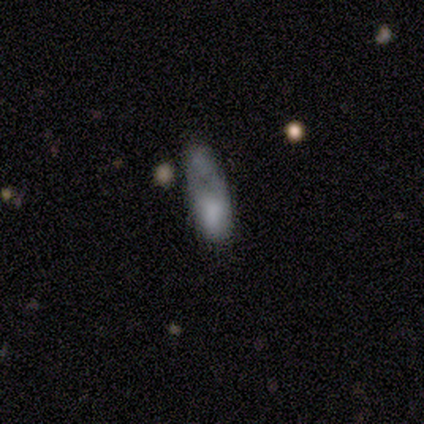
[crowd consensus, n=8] A smooth galaxy with no disk features (75%) that is in between round and cigar-shaped (67%). Merging: major disturbance (50%).